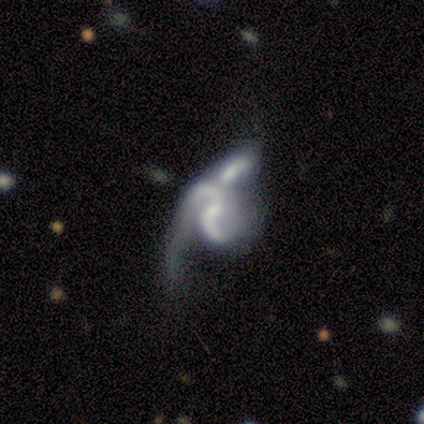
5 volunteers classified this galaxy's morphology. Smooth or featured? 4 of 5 (80%) said featured or disk. Edge-on disk? 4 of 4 (100%) said no. Bar? 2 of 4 (50%, tied with no) said weak. Spiral arms? 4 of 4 (100%) said yes. Spiral winding? 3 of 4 (75%) said loose. Spiral arm count? 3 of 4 (75%) said 2. Bulge size? 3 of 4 (75%) said small. Merging? 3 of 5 (60%) said merger.